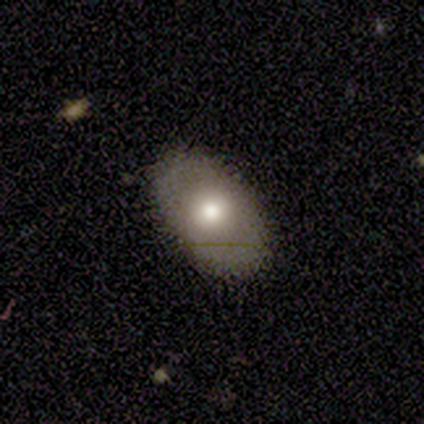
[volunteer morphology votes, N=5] smooth_or_featured: featured or disk (p=0.60) [alt: smooth p=0.40]
disk_edge_on: no (p=1.00)
bar: no (p=0.67) [alt: weak p=0.33]
has_spiral_arms: no (p=1.00)
bulge_size: moderate (p=1.00)
merging: none (p=1.00)